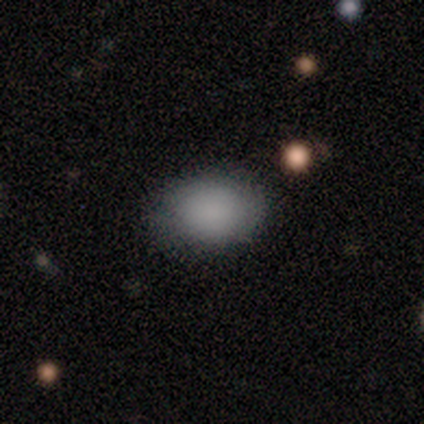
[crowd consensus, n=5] Q: Smooth or featured?
A: smooth (100%)
Q: How rounded?
A: in between (80%); runner-up: round (20%)
Q: Merging?
A: none (80%); runner-up: minor disturbance (20%)